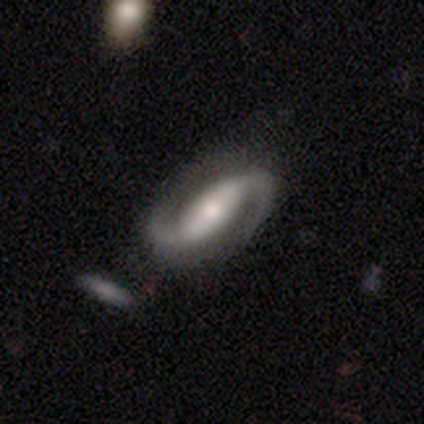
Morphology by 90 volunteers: type=featured or disk (96%); edge-on=no (94%); bar=strong (48%); spiral arms=yes (98%); winding=loose (48%); arm count=2 (97%); bulge=moderate (57%); merging=none (81%).